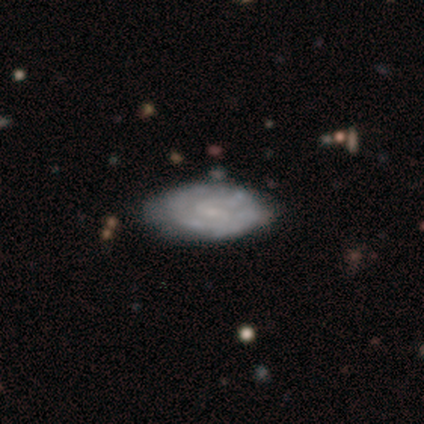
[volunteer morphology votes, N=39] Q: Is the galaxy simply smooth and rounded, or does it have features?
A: featured or disk — 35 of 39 (90%).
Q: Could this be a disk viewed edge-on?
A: no — 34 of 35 (97%).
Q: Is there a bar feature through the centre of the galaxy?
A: weak — 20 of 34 (59%).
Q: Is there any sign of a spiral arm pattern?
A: yes — 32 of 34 (94%).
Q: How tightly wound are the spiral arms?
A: tight — 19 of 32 (59%).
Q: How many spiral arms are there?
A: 2 — 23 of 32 (72%).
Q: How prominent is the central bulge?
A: small — 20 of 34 (59%).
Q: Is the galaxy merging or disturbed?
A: none — 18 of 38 (47%).